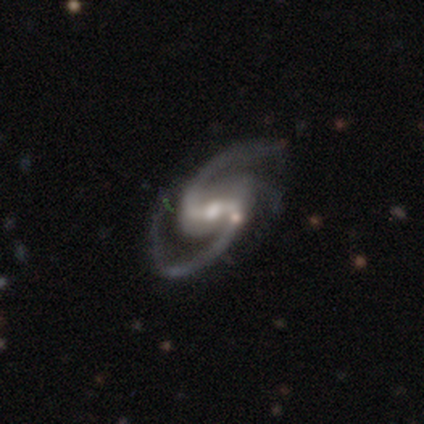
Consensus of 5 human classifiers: smooth-or-featured: featured or disk: 100% | smooth: 0% | star or artifact: 0%
  disk-edge-on: no: 100% | yes: 0%
    bar: weak: 40% (tied) | no: 40% (tied) | strong: 20%
    has-spiral-arms: yes: 100% | no: 0%
      spiral-winding: medium: 80% | loose: 20% | tight: 0%
      spiral-arm-count: 2: 80% | 3: 20% | 1: 0% | 4: 0% | more than 4: 0% | can't tell: 0%
    bulge-size: moderate: 40% | large: 20% | small: 20% | none: 20% | dominant: 0%
  merging: none: 80% | minor disturbance: 20% | major disturbance: 0% | merger: 0%